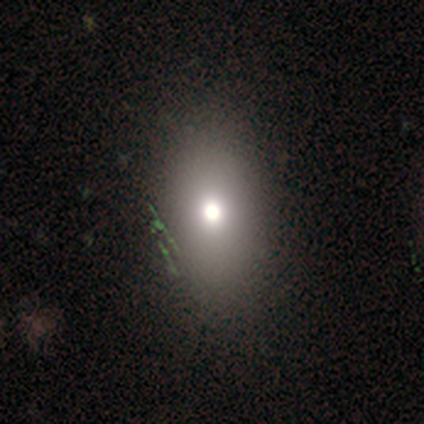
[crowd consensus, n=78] Smooth or featured?
  - smooth: 72% *
  - star or artifact: 18%
  - featured or disk: 10%
How rounded?
  - in between: 86% *
  - round: 12%
  - cigar-shaped: 2%
Merging?
  - none: 53% *
  - minor disturbance: 3%
  - major disturbance: 3%
  - merger: 3%